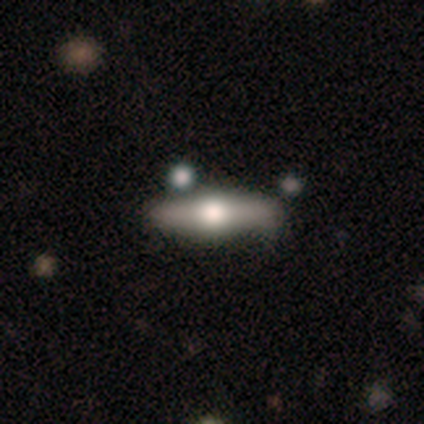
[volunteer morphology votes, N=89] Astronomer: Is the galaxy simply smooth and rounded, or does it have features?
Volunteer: featured or disk — 63%.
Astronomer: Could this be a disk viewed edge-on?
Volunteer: yes — 91%.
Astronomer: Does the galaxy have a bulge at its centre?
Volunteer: rounded — 98%.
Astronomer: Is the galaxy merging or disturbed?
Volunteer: none — 73%.